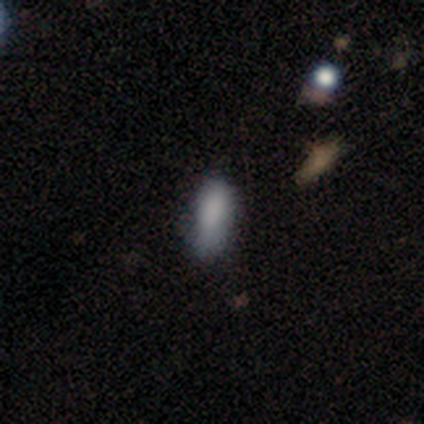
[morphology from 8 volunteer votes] smooth 75%, featured or disk 12%, star or artifact 12%. Down the decision tree: how rounded — in between (100%); merging — none (57%).